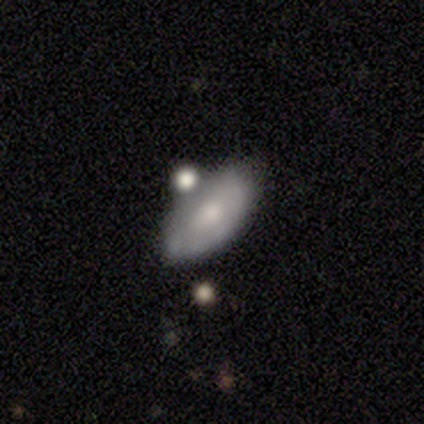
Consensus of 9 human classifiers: Morphology: type=smooth (56%); roundness=in between (100%); merging=minor disturbance (56%).